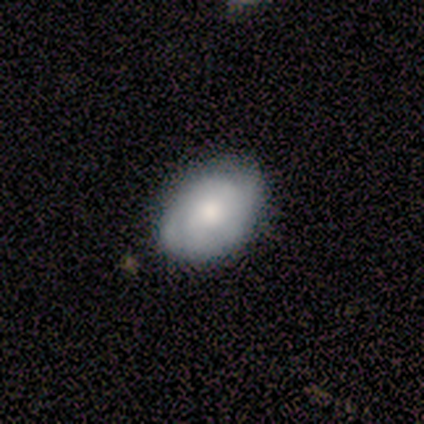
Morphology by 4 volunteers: Volunteers were most divided on "smooth or featured" (2-way tie): smooth: 50%, featured or disk: 50%, star or artifact: 0%. More confident: how rounded — in between (100%); merging — none (75%).